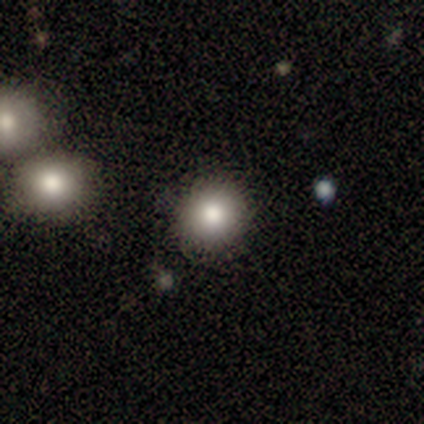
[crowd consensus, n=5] Morphology: type=smooth (100%); roundness=round (80%); merging=none (100%).